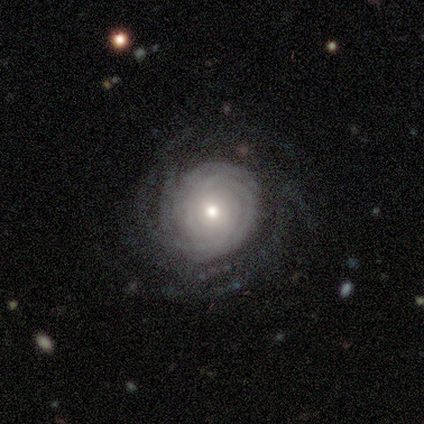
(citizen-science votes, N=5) A featured or disk galaxy (100%) with no bar (100%), tight (50%) spiral arms (100%) and a small central bulge (75%).

Vote fractions:
- Smooth or featured? featured or disk: 100% / smooth: 0% / star or artifact: 0%
- Edge-on disk? no: 80% / yes: 20%
- Bar? no: 100% / strong: 0% / weak: 0%
- Spiral arms? yes: 100% / no: 0%
- Spiral winding? tight: 50% / medium: 25% / loose: 25%
- Spiral arm count? can't tell: 75% / 3: 25% / 1: 0% / 2: 0% / 4: 0% / more than 4: 0%
- Bulge size? small: 75% / dominant: 25% / large: 0% / moderate: 0% / none: 0%
- Merging? none: 80% / minor disturbance: 20% / major disturbance: 0% / merger: 0%